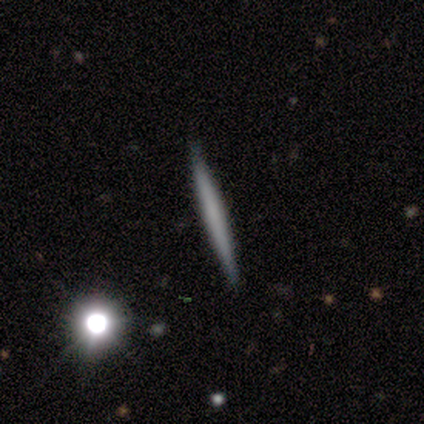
smooth-or-featured: featured or disk: 80% | smooth: 20% | star or artifact: 0%
  disk-edge-on: yes: 100% | no: 0%
    edge-on-bulge: none: 75% | rounded: 25% | boxy: 0%
  merging: none: 80% | minor disturbance: 20% | major disturbance: 0% | merger: 0%